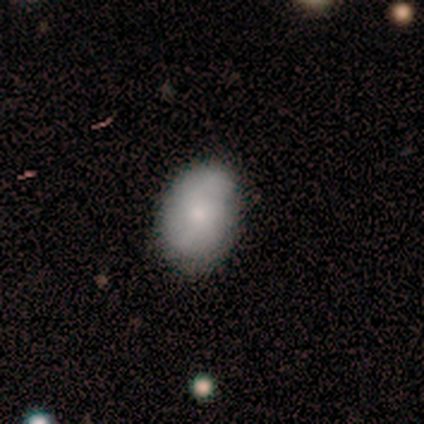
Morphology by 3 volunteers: A smooth galaxy with no disk features (67%) that is in between round and cigar-shaped (100%).

Vote fractions:
- Smooth or featured? smooth: 67% / featured or disk: 33% / star or artifact: 0%
- How rounded? in between: 100% / round: 0% / cigar-shaped: 0%
- Merging? minor disturbance: 67% / none: 33% / major disturbance: 0% / merger: 0%